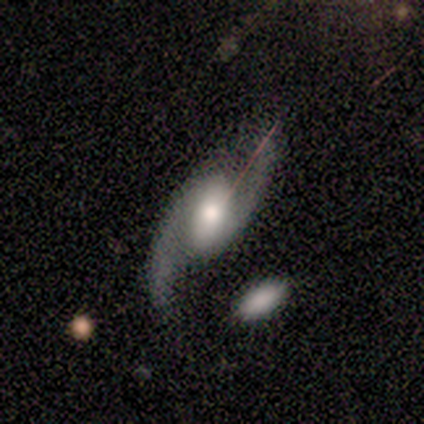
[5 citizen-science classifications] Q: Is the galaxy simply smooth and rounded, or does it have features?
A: featured or disk — 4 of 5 (80%).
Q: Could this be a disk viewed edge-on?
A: no — 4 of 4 (100%).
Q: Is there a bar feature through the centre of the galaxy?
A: weak — 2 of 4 (50%, tied with no).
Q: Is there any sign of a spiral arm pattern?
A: yes — 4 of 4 (100%).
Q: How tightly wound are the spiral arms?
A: loose — 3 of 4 (75%).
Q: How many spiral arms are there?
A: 2 — 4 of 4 (100%).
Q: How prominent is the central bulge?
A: moderate — 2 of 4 (50%).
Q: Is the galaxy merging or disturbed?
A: none — 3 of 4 (75%).